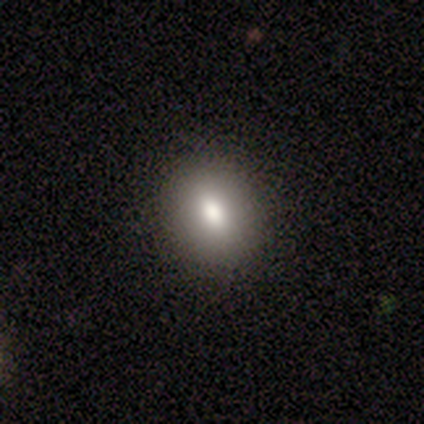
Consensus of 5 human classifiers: This appears to be a smooth galaxy with no disk features (80%) that is in between round and cigar-shaped (75%). Merging: none (100%).